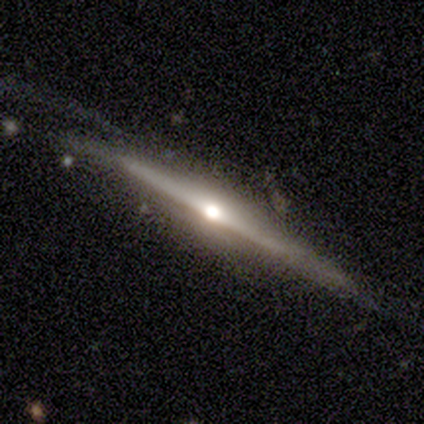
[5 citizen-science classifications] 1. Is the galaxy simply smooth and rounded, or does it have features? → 100% featured or disk, 0% smooth, 0% star or artifact.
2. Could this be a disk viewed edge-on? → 100% yes, 0% no.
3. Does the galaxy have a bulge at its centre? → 100% rounded, 0% boxy, 0% none.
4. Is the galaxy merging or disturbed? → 60% none, 40% minor disturbance, 0% major disturbance, 0% merger.